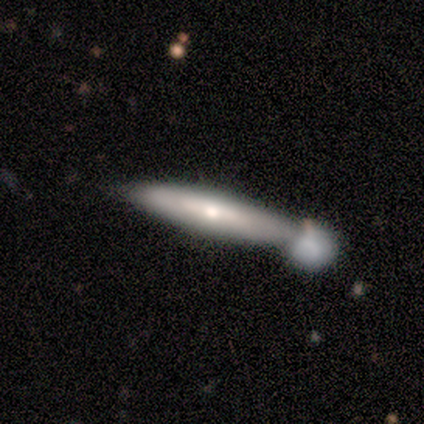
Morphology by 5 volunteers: Smooth or featured? 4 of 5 (80%) said smooth. How rounded? 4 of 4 (100%) said cigar-shaped. Merging? 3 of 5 (60%) said minor disturbance.